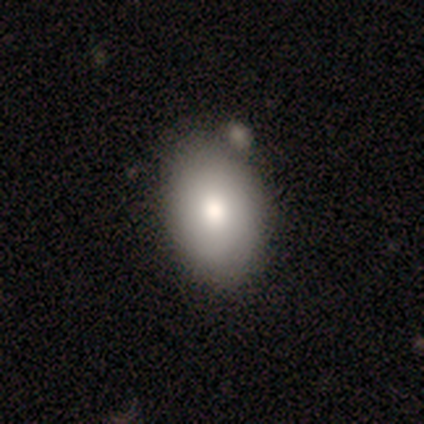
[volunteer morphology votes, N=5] Smooth or featured: smooth — 100%
How rounded: in between — 100%
Merging: none — 80% (minor disturbance — 20%)